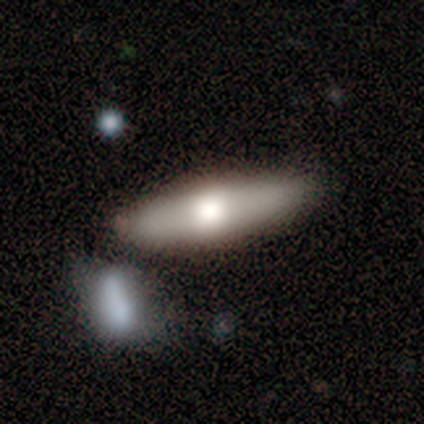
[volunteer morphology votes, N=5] Smooth or featured: featured or disk — 60% (smooth — 40%)
Edge-on disk: yes — 100%
Edge-on bulge: rounded — 100%
Merging: none — 100%